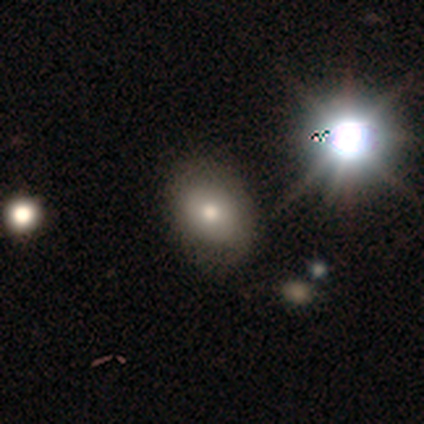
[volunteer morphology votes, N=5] Volunteers were most divided on "merging": none: 75%, minor disturbance: 25%, major disturbance: 0%, merger: 0%. More confident: how rounded — in between (100%); smooth or featured — smooth (80%).